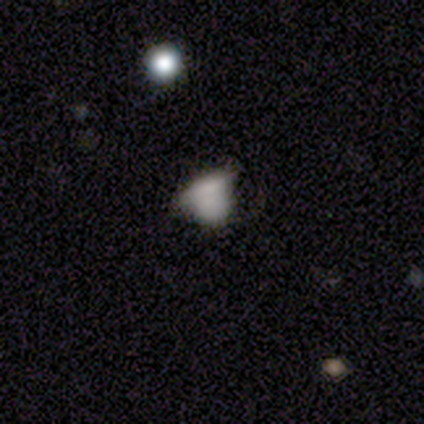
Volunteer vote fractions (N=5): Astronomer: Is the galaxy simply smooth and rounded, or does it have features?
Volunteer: smooth — 60%.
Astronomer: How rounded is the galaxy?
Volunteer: round — 67%.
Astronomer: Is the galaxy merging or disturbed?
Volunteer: none — 75%.